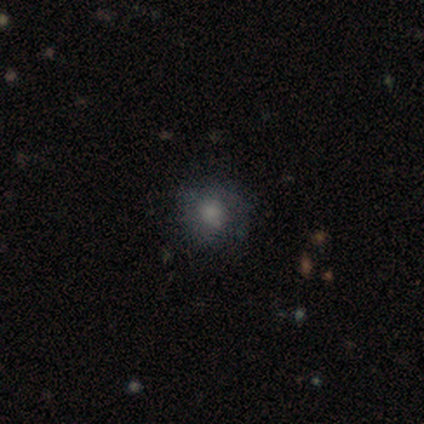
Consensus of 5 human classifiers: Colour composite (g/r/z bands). It shows a featured or disk galaxy (60%) with no bar (100%), no spiral arms (67%) and a moderate central bulge (33%, tied with small and none). Merging: none (50%).